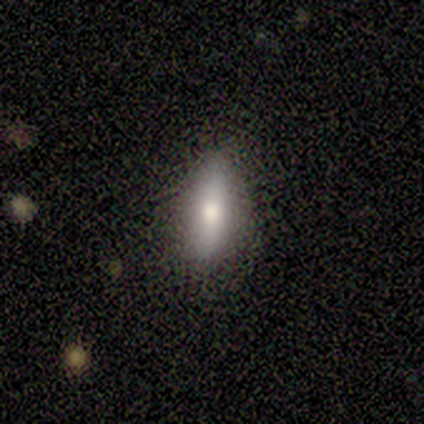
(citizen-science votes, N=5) Smooth or featured? smooth (80%)
How rounded? cigar-shaped (75%)
Merging? none (100%)